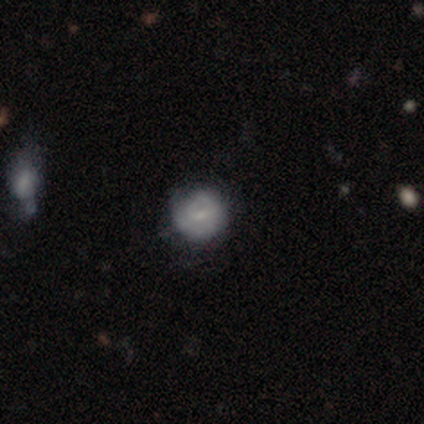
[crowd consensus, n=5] Smooth or featured? 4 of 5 (80%) said smooth. How rounded? 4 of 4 (100%) said round. Merging? 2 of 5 (40%, tied with minor disturbance) said none.